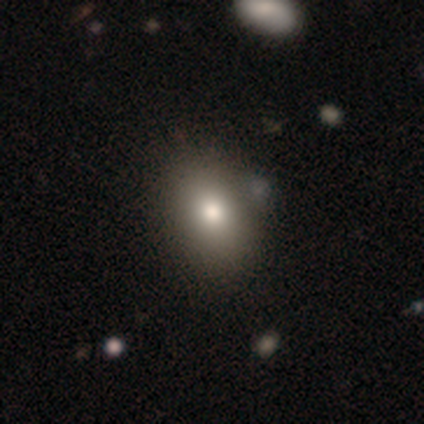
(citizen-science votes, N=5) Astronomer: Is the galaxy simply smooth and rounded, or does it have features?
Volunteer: smooth — 80%.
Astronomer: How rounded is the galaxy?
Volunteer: in between — 75%.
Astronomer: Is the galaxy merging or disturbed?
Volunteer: none — 100%.